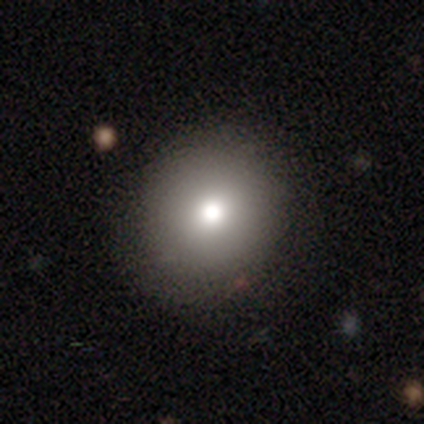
This is likely a smooth galaxy (77%). How rounded: clearly round (97%). Merging: possibly none (46%).